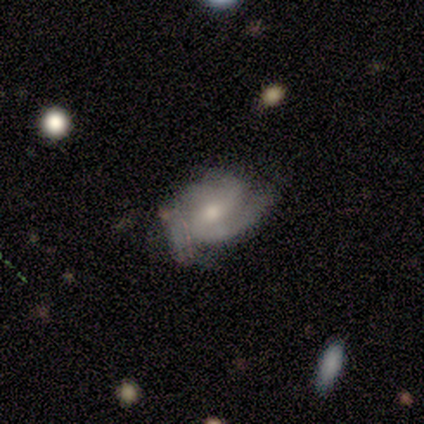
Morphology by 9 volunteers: Smooth or featured? 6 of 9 (67%) said featured or disk. Edge-on disk? 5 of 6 (83%) said no. Bar? 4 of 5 (80%) said no. Spiral arms? 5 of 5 (100%) said yes. Spiral winding? 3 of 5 (60%) said tight. Spiral arm count? 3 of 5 (60%) said 3. Bulge size? 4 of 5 (80%) said moderate. Merging? 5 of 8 (62%) said none.